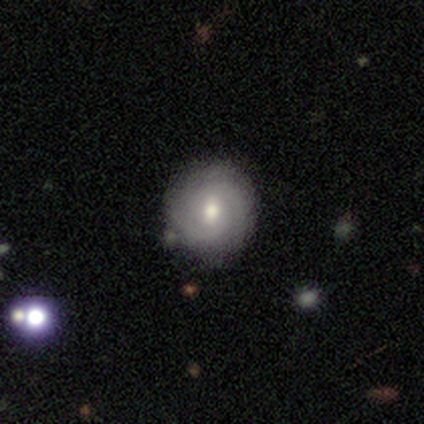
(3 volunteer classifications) A smooth galaxy with no disk features (33%, tied with featured or disk and star or artifact) that is round (100%). Merging: none (100%).